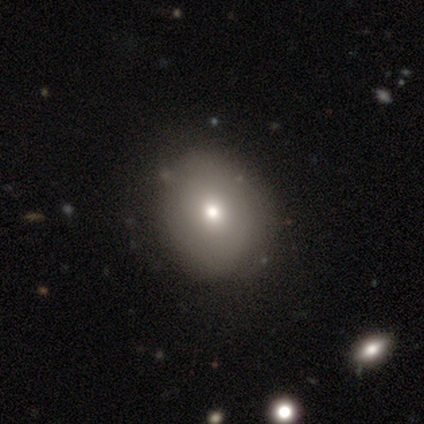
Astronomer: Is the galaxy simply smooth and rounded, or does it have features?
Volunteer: smooth — 60% (runner-up: featured or disk, 40%).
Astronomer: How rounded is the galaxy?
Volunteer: round — 67%.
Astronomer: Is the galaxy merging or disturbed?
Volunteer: none — 60%.